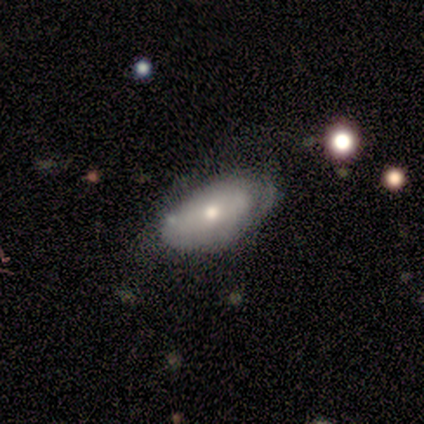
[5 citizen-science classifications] smooth 80%, featured or disk 20%, star or artifact 0%. Down the decision tree: how rounded — in between (100%); merging — none (40%, tied with minor disturbance).